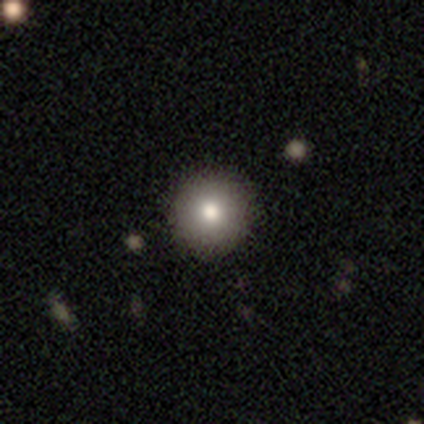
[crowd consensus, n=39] Volunteers were most divided on "smooth or featured": smooth: 79%, featured or disk: 13%, star or artifact: 8%. More confident: how rounded — round (97%); merging — none (92%).